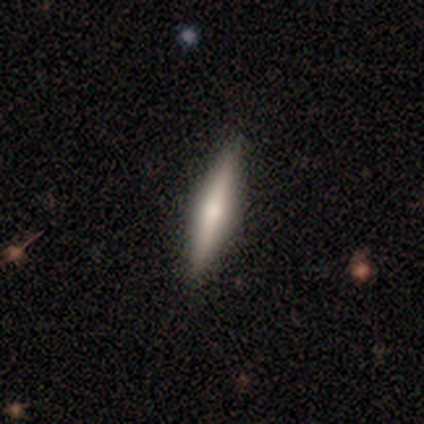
Smooth or featured? featured or disk (51%)
Edge-on disk? yes (90%)
Edge-on bulge? rounded (95%)
Merging? none (89%)